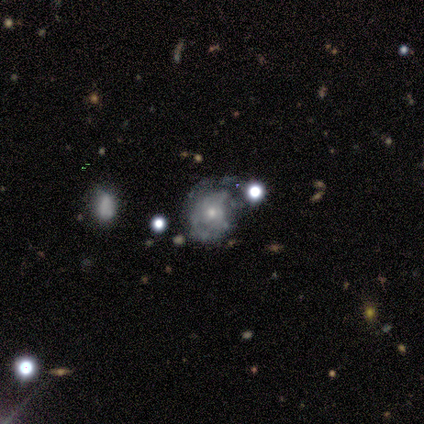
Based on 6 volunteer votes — Q: Smooth or featured?
A: featured or disk (83%); runner-up: smooth (17%)
Q: Edge-on disk?
A: no (100%)
Q: Bar?
A: no (100%)
Q: Spiral arms?
A: no (60%); runner-up: yes (40%)
Q: Bulge size?
A: small (100%)
Q: Merging?
A: major disturbance (50%); runner-up: minor disturbance (33%)